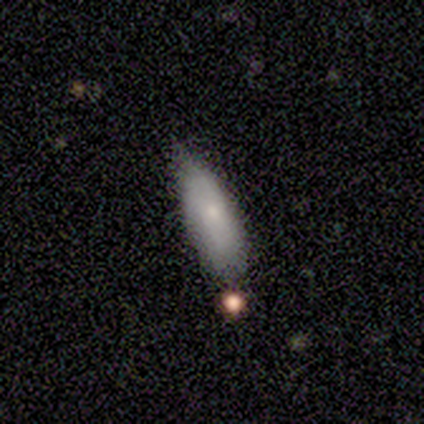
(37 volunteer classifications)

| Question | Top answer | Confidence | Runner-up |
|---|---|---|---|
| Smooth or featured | smooth | 81% | featured or disk (11%) |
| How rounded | in between | 67% | cigar-shaped (33%) |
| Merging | none | 62% | minor disturbance (29%) |